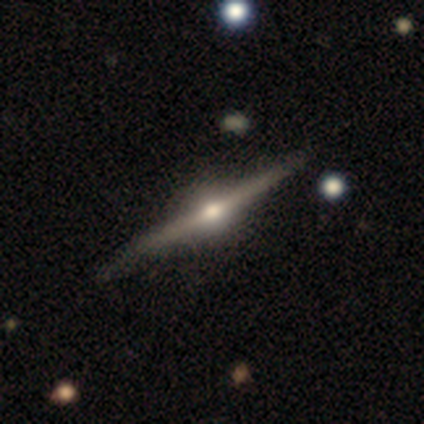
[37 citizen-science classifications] Q: Smooth or featured?
A: featured or disk (89%); runner-up: star or artifact (8%)
Q: Edge-on disk?
A: yes (100%)
Q: Edge-on bulge?
A: rounded (97%); runner-up: boxy (3%)
Q: Merging?
A: none (79%); runner-up: minor disturbance (21%)